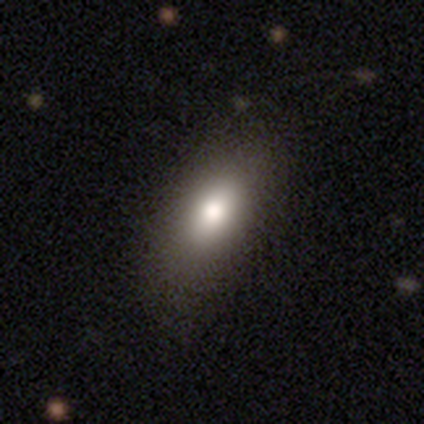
Smooth or featured?
  - smooth: 80% *
  - featured or disk: 20%
  - star or artifact: 0%
How rounded?
  - in between: 100% *
  - round: 0%
  - cigar-shaped: 0%
Merging?
  - none: 80% *
  - minor disturbance: 20%
  - major disturbance: 0%
  - merger: 0%